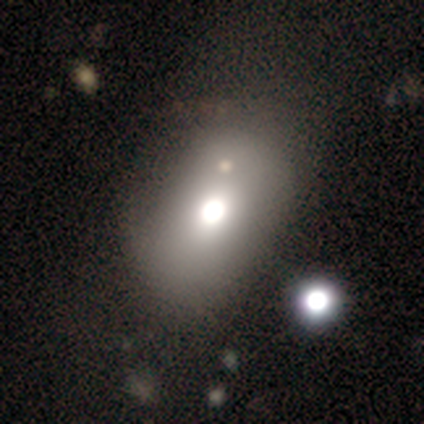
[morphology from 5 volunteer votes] Smooth or featured: smooth — 80% (star or artifact — 20%)
How rounded: in between — 100%
Merging: none — 75% (major disturbance — 25%)